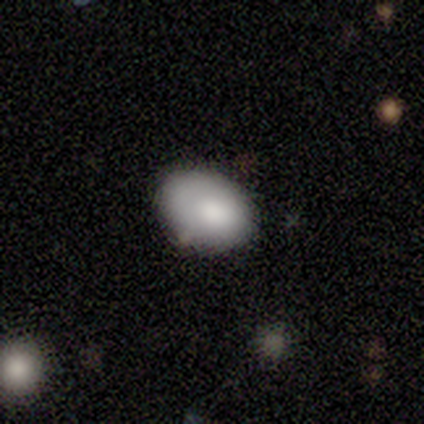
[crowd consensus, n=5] Smooth or featured? 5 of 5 (100%) said smooth. How rounded? 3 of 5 (60%) said in between. Merging? 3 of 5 (60%) said none.